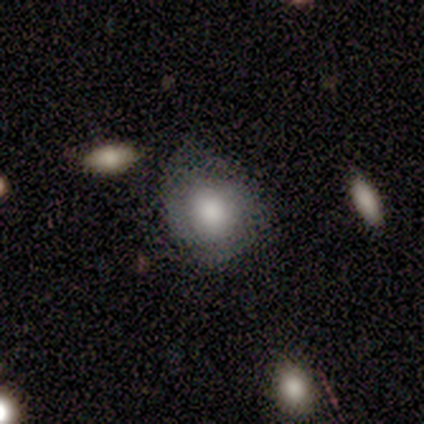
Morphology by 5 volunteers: smooth 100%, featured or disk 0%, star or artifact 0%. Down the decision tree: how rounded — round (80%); merging — none (80%).